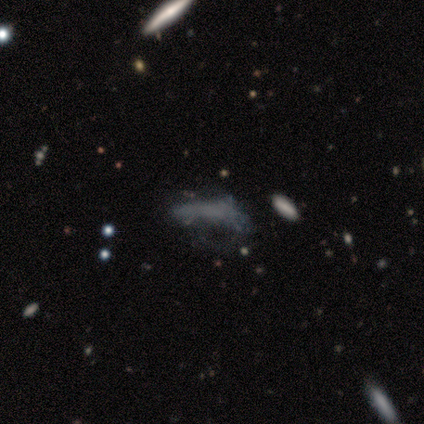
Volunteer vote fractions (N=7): This appears to be a smooth galaxy with no disk features (43%, tied with featured or disk) that is in between round and cigar-shaped (100%). Merging: none (33%, tied with minor disturbance).